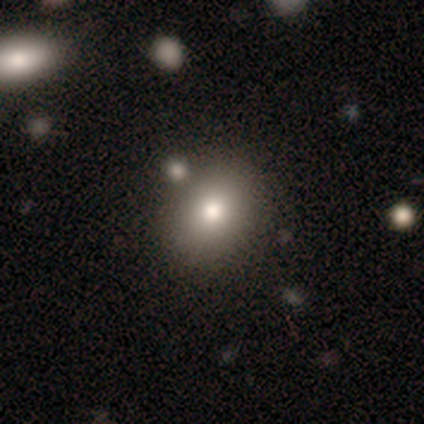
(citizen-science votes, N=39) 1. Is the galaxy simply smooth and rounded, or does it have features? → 69% smooth, 15% featured or disk, 15% star or artifact.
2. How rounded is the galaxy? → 67% round, 33% in between, 0% cigar-shaped.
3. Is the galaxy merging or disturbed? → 79% none, 12% minor disturbance, 6% major disturbance, 3% merger.